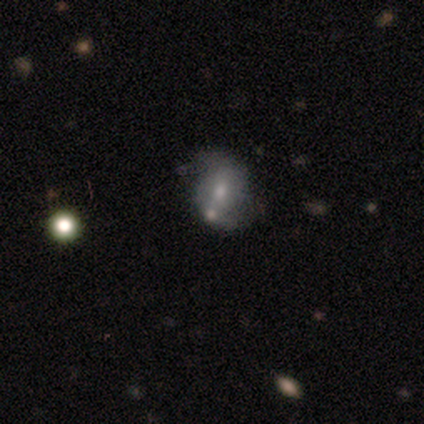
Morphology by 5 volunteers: Smooth or featured? 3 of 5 (60%) said featured or disk. Edge-on disk? 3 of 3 (100%) said no. Bar? 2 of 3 (67%) said no. Spiral arms? 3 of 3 (100%) said yes. Spiral winding? 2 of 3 (67%) said loose. Spiral arm count? 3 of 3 (100%) said 2. Bulge size? 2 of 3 (67%) said moderate. Merging? 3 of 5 (60%) said none.